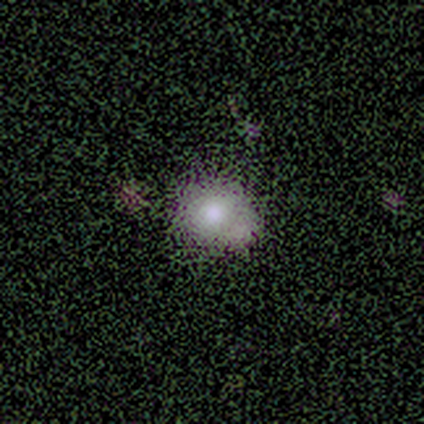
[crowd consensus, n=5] This appears to be a smooth galaxy with no disk features (40%, tied with star or artifact) that is round (50%, tied with in between). Merging: none (100%).